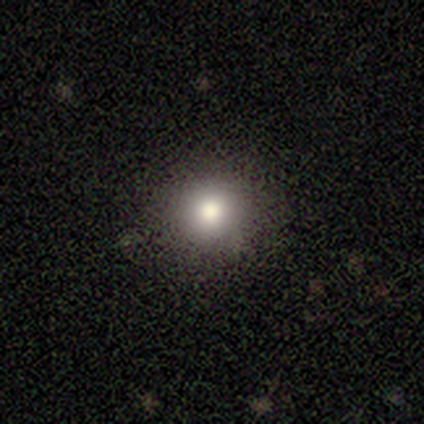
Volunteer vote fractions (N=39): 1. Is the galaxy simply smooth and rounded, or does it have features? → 74% smooth, 18% star or artifact, 8% featured or disk.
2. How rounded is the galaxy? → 97% round, 3% in between, 0% cigar-shaped.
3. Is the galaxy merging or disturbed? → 91% none, 9% minor disturbance, 0% major disturbance, 0% merger.